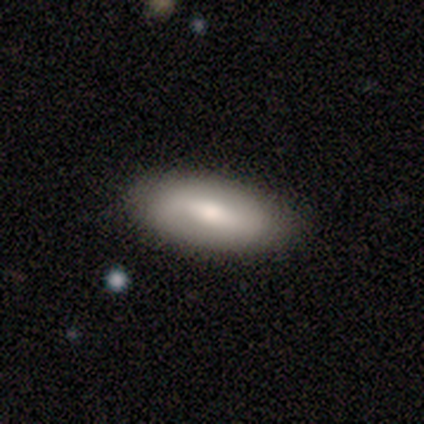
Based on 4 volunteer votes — smooth-or-featured: smooth: 50% (tied) | featured or disk: 50% (tied) | star or artifact: 0%
  how-rounded: in between: 100% | round: 0% | cigar-shaped: 0%
  merging: none: 100% | minor disturbance: 0% | major disturbance: 0% | merger: 0%